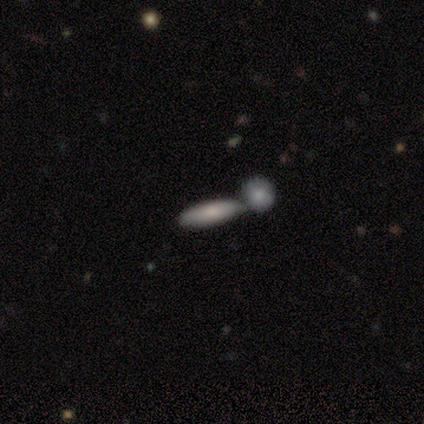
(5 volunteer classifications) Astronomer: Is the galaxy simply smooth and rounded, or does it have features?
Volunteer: smooth — 40%, tied with featured or disk at 40%.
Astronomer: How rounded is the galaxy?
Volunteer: in between — 50%, tied with cigar-shaped at 50%.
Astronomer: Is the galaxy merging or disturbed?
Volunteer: merger — 75%.